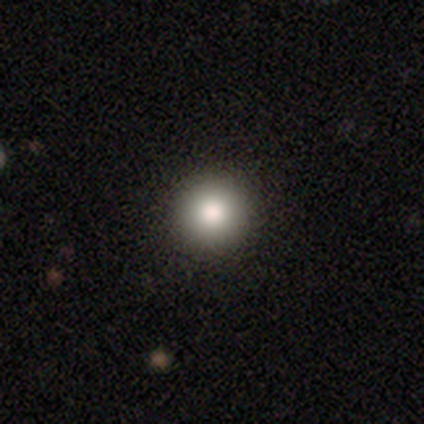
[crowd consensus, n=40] Smooth or featured? smooth (85%)
How rounded? round (97%)
Merging? none (76%)